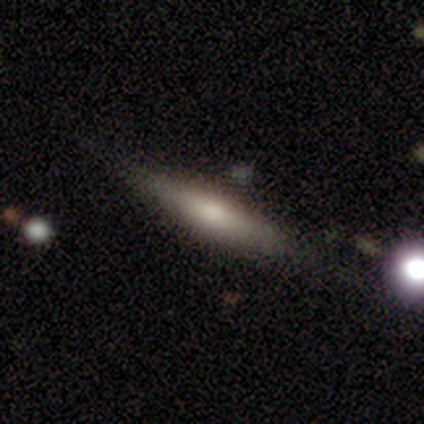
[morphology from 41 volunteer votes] Smooth or featured? smooth (49%)
How rounded? cigar-shaped (75%)
Merging? none (67%)